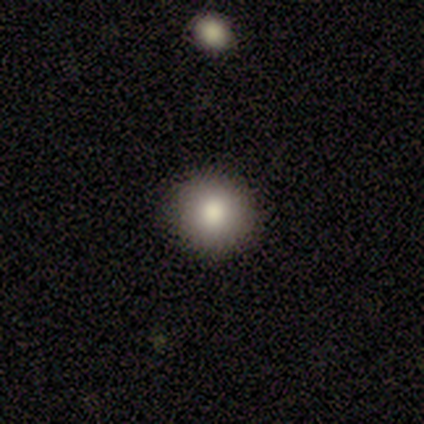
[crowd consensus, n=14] Smooth or featured? smooth (71%)
How rounded? round (100%)
Merging? none (100%)